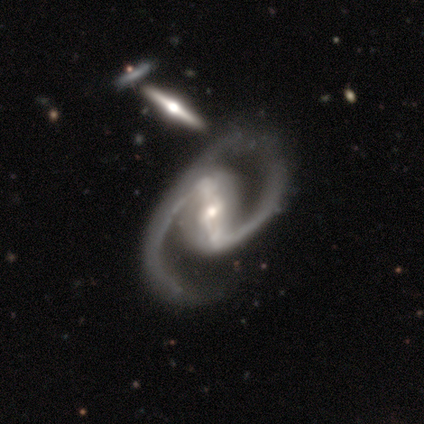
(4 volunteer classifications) smooth_or_featured: featured or disk (p=1.00)
disk_edge_on: no (p=0.75) [alt: yes p=0.25]
bar: strong (p=0.67) [alt: weak p=0.33]
has_spiral_arms: yes (p=1.00)
spiral_winding: medium (p=0.67) [alt: tight p=0.33]
spiral_arm_count: 2 (p=0.67) [alt: 1 p=0.33]
bulge_size: moderate (p=0.67) [alt: small p=0.33]
merging: major disturbance (p=0.75) [alt: minor disturbance p=0.25]